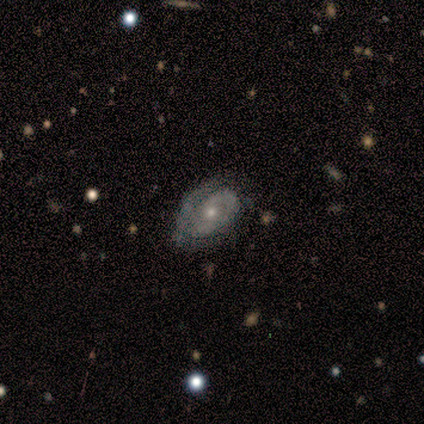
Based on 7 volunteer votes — A featured or disk galaxy (100%) with no bar (100%), 2 (60%) tight (60%) spiral arms (83%) and a small central bulge (83%). Merging: none (86%).